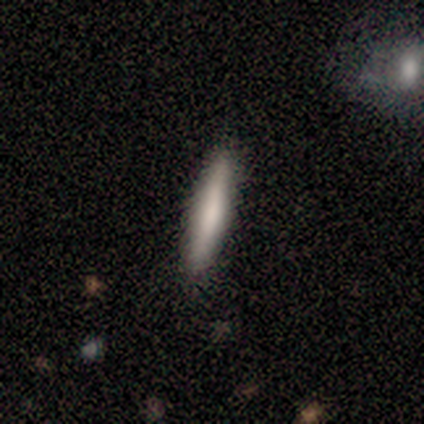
Smooth or featured: smooth — 40% (tied with featured or disk — 40%)
How rounded: cigar-shaped — 100%
Merging: none — 100%